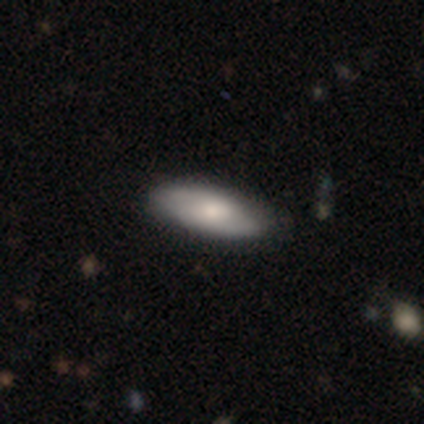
Morphology: type=smooth (60%); roundness=cigar-shaped (100%); merging=none (100%).